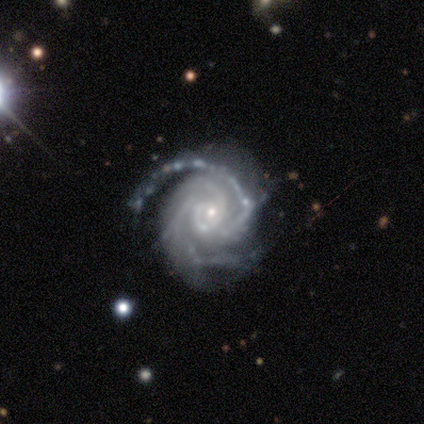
This appears to be a featured or disk galaxy (100%) with no bar (100%), 2 (80%) tight (100%) spiral arms (100%) and a small central bulge (80%). Merging: minor disturbance (40%, tied with major disturbance).